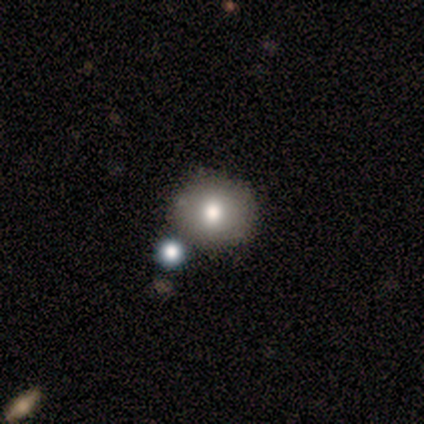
smooth-or-featured: smooth: 60% | featured or disk: 40% | star or artifact: 0%
  how-rounded: round: 100% | in between: 0% | cigar-shaped: 0%
  merging: none: 60% | minor disturbance: 20% | merger: 20% | major disturbance: 0%